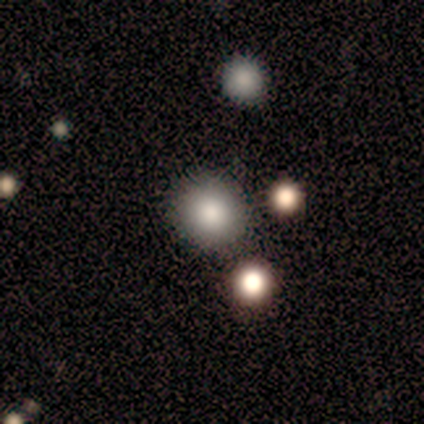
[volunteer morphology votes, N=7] smooth-or-featured: smooth: 71% | featured or disk: 14% | star or artifact: 14%
  how-rounded: round: 100% | in between: 0% | cigar-shaped: 0%
  merging: none: 33% (tied) | merger: 33% (tied) | minor disturbance: 17% | major disturbance: 17%